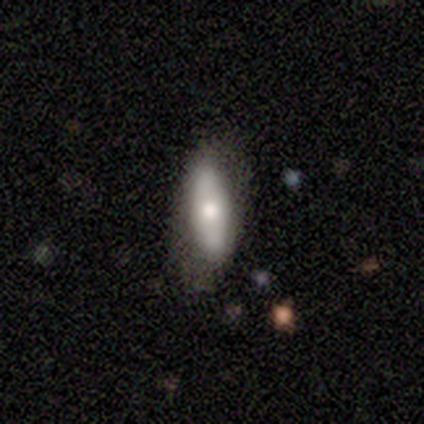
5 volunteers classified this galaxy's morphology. This appears to be a smooth galaxy with no disk features (60%) that is in between round and cigar-shaped (67%). Merging: none (60%).